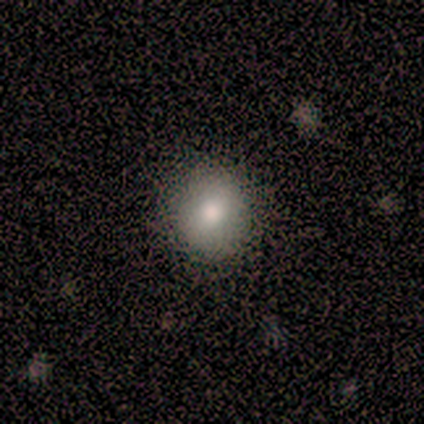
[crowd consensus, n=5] Smooth or featured? smooth (100%)
How rounded? round (100%)
Merging? none (100%)